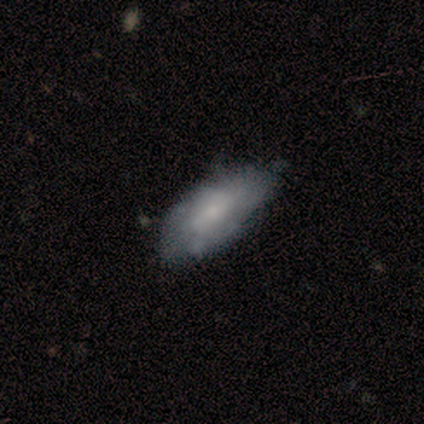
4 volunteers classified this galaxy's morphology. Smooth or featured: smooth — 100%
How rounded: in between — 75% (cigar-shaped — 25%)
Merging: none — 75% (minor disturbance — 25%)